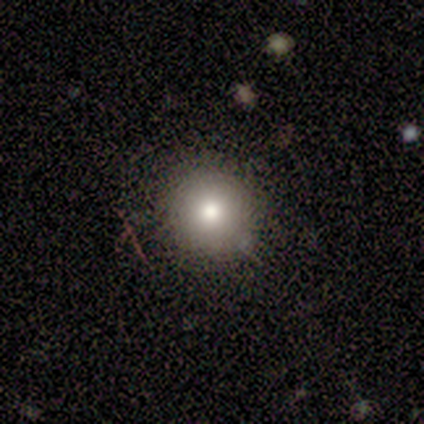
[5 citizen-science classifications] A smooth galaxy with no disk features (40%, tied with star or artifact) that is round (100%). Merging: none (67%).